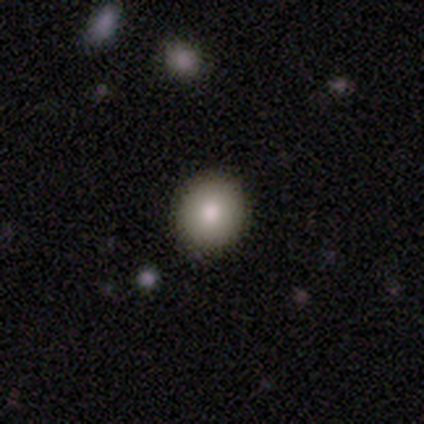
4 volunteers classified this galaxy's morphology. smooth-or-featured: smooth: 100% | featured or disk: 0% | star or artifact: 0%
  how-rounded: round: 100% | in between: 0% | cigar-shaped: 0%
  merging: none: 100% | minor disturbance: 0% | major disturbance: 0% | merger: 0%